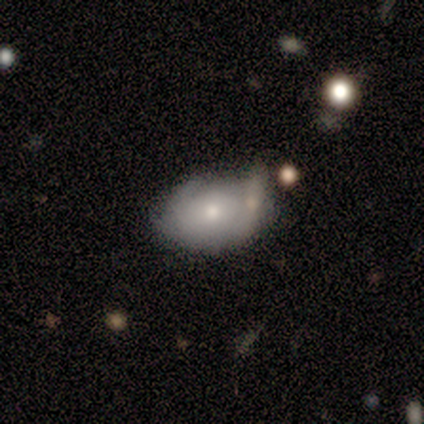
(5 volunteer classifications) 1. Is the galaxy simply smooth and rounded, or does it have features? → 80% smooth, 20% featured or disk, 0% star or artifact.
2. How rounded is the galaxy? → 100% in between, 0% round, 0% cigar-shaped.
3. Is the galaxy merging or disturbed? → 40% minor disturbance, 20% none, 20% major disturbance, 20% merger.